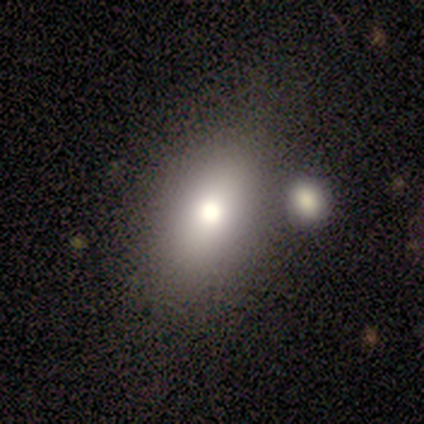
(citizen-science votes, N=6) A smooth galaxy with no disk features (50%, tied with featured or disk) that is in between round and cigar-shaped (100%). Merging: minor disturbance (50%).